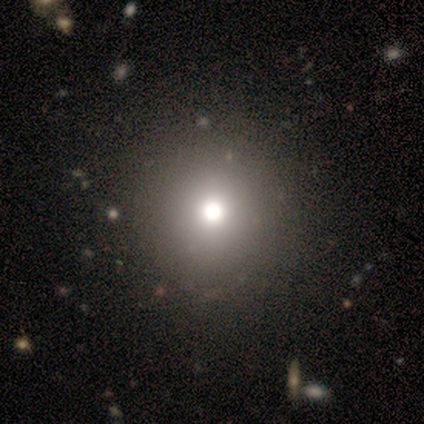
smooth 71%, featured or disk 14%, star or artifact 14%. Down the decision tree: how rounded — round (100%); merging — none (83%).